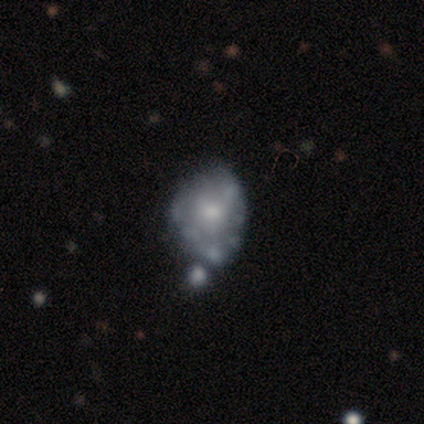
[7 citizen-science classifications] Smooth or featured? featured or disk (86%)
Edge-on disk? no (100%)
Bar? no (83%)
Spiral arms? no (100%)
Bulge size? moderate (50%)
Merging? none (43%, tied with merger)